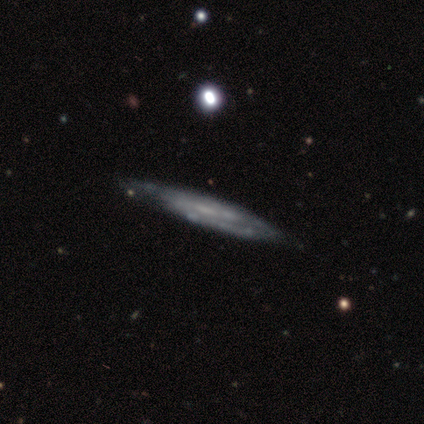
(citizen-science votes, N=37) smooth_or_featured: featured or disk (p=0.68) [alt: smooth p=0.22]
disk_edge_on: yes (p=0.64) [alt: no p=0.36]
edge_on_bulge: none (p=0.88) [alt: boxy p=0.06]
merging: none (p=0.79) [alt: minor disturbance p=0.12]